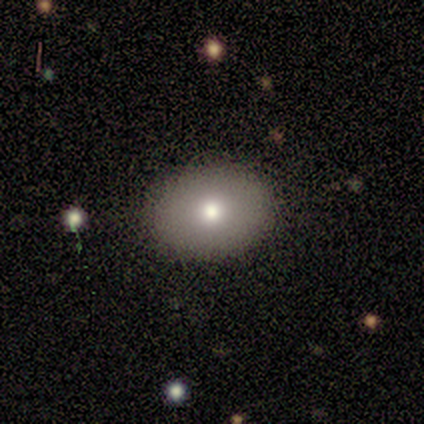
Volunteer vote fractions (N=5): smooth 80%, star or artifact 20%, featured or disk 0%. Down the decision tree: how rounded — in between (75%); merging — none (75%).